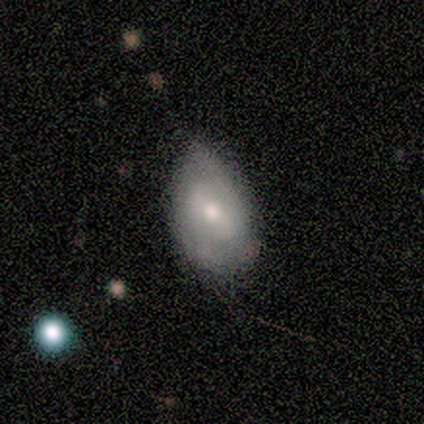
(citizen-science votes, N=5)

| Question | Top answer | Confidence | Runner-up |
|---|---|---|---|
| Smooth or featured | smooth | 60% | featured or disk (40%) |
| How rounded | in between | 100% | — |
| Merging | none | 60% | minor disturbance (40%) |